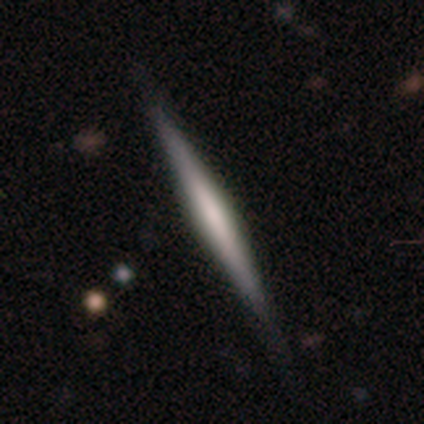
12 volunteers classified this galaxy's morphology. type=featured or disk (75%); edge-on=yes (100%); edge-on bulge=rounded (44%); merging=none (82%).